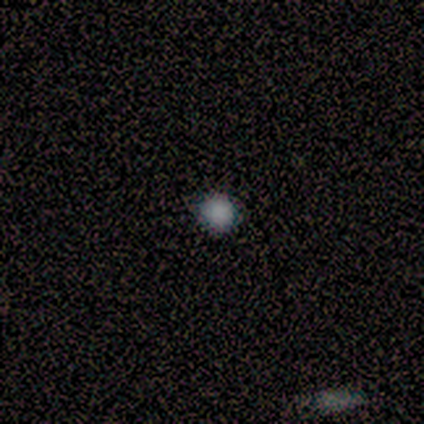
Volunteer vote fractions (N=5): This appears to be a smooth galaxy with no disk features (80%) that is round (75%). Merging: none (100%).